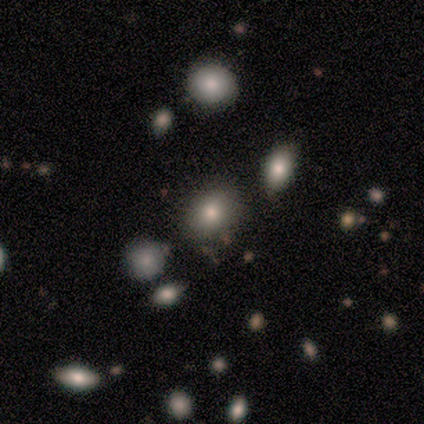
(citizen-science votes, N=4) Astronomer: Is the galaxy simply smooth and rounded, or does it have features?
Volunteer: smooth — 75%.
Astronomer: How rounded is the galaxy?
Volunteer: round — 67%.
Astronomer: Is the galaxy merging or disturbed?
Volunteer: minor disturbance — 67%.